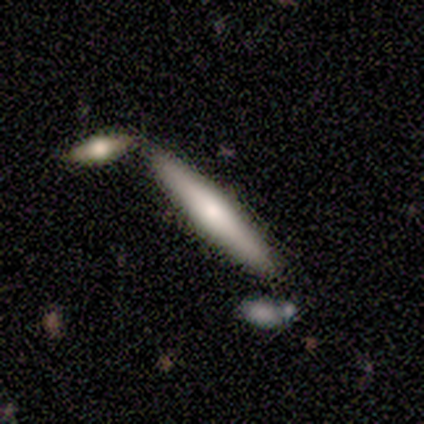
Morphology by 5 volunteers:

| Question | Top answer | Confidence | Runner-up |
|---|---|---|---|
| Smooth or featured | smooth | 100% | — |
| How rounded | cigar-shaped | 100% | — |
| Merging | none | 100% | — |